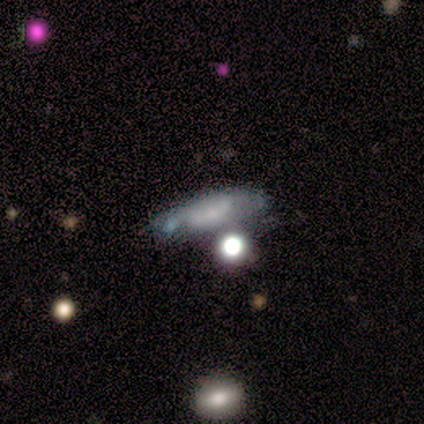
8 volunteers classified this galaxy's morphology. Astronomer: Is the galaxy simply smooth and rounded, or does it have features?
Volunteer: featured or disk — 88%.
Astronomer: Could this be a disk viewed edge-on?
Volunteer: no — 71%.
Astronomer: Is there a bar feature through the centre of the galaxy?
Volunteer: no — 60%.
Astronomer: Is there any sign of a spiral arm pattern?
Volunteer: no — 60% (runner-up: yes, 40%).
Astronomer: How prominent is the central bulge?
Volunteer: small — 60%.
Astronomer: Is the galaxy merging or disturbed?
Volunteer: none — 50%.